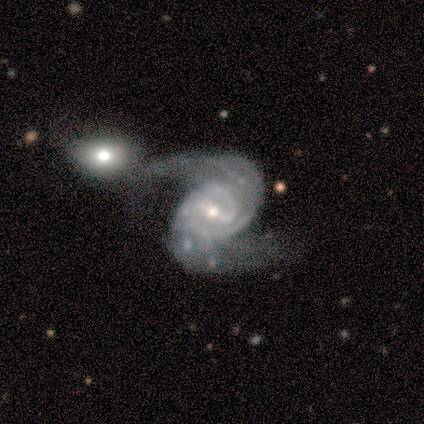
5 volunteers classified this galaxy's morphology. Overall: featured or disk (80%). Edge-on disk: no (100%). Bar: weak (50%; strong 25%). Spiral arms: yes (100%). Spiral arm count: 2 (100%). Spiral winding: medium (50%, tied with loose). Bulge size: moderate (75%). Merging: major disturbance (50%; none 25%).